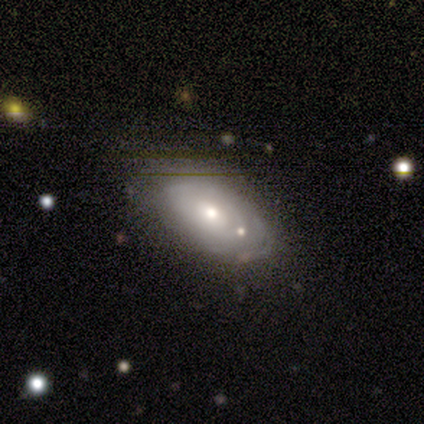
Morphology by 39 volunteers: type=featured or disk (54%); edge-on=no (86%); bar=no (94%); spiral arms=yes (56%); winding=tight (60%); arm count=can't tell (70%); bulge=moderate (61%); merging=none (46%).